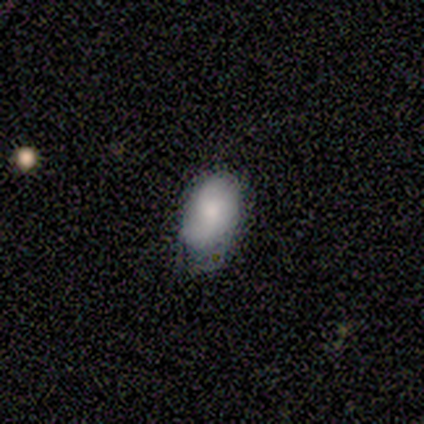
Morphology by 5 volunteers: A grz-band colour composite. It shows a smooth galaxy with no disk features (60%) that is in between round and cigar-shaped (67%). Merging: none (100%).